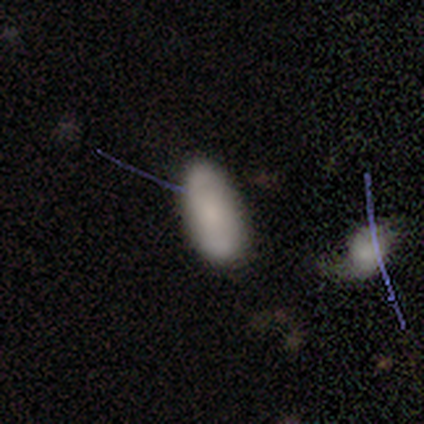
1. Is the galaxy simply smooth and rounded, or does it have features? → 56% smooth, 28% featured or disk, 15% star or artifact.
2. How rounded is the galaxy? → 82% in between, 14% cigar-shaped, 5% round.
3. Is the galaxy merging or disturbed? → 73% none, 24% minor disturbance, 3% major disturbance, 0% merger.